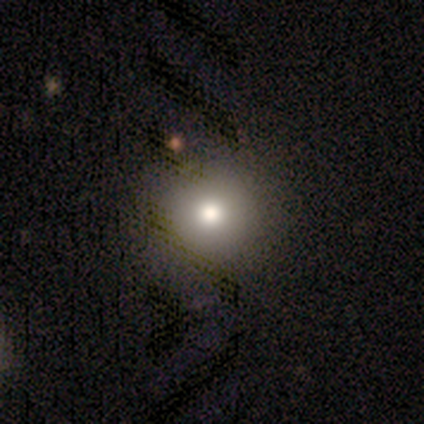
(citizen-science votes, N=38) smooth 76%, featured or disk 16%, star or artifact 8%. Down the decision tree: how rounded — round (93%); merging — none (63%).